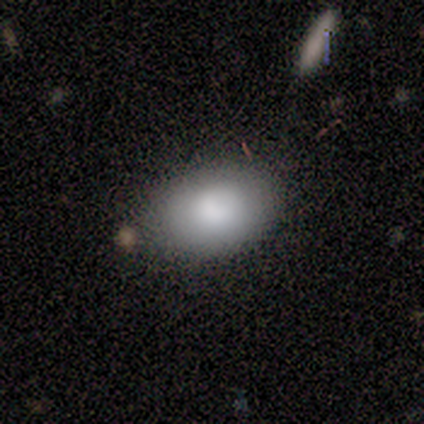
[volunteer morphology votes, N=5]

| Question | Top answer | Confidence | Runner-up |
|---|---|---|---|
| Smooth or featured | smooth | 80% | featured or disk (20%) |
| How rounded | in between | 100% | — |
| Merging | none | 100% | — |